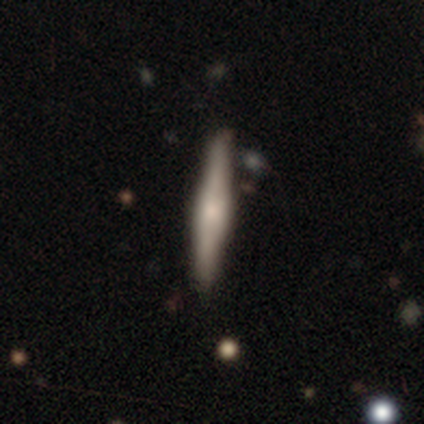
A featured or disk galaxy (67%) viewed edge-on (100%) with a rounded central bulge (65%). Merging: none (83%).